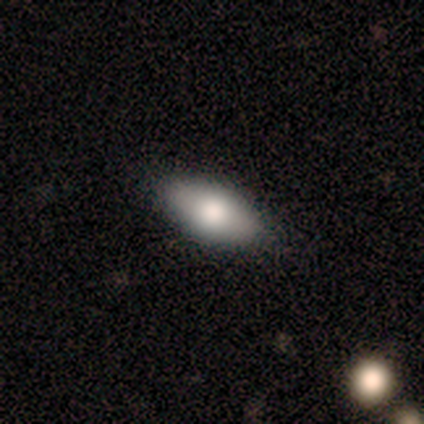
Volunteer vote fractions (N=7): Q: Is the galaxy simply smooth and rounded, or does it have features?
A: smooth — 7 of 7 (100%).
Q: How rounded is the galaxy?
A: in between — 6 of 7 (86%).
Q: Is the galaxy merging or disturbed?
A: none — 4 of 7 (57%).